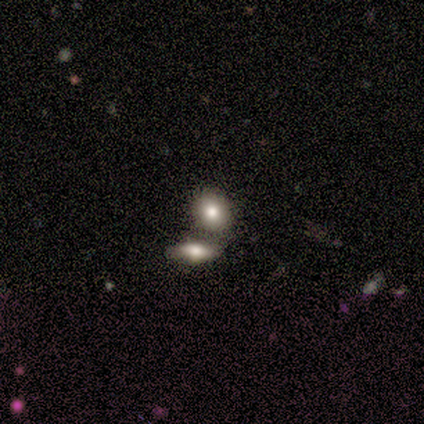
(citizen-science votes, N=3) Volunteers were most divided on "how rounded": in between: 67%, round: 33%, cigar-shaped: 0%. More confident: smooth or featured — smooth (100%); merging — none (67%).